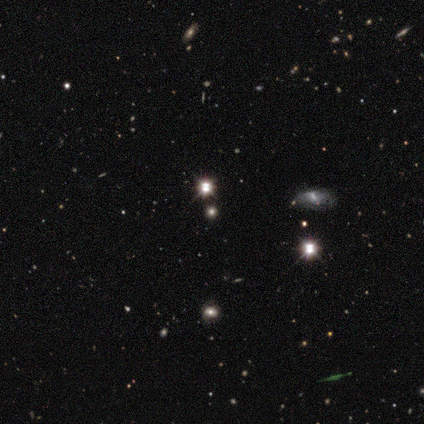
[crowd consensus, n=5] Q: Smooth or featured?
A: star or artifact (80%); runner-up: smooth (20%)